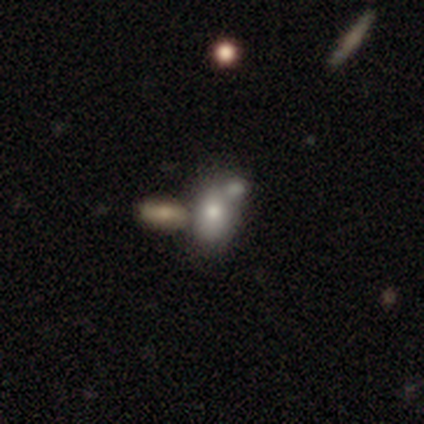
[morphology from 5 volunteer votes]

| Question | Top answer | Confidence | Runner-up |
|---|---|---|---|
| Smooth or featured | smooth | 60% | featured or disk (40%) |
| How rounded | in between | 67% | round (33%) |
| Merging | none | 40% | tied: merger (40%) |